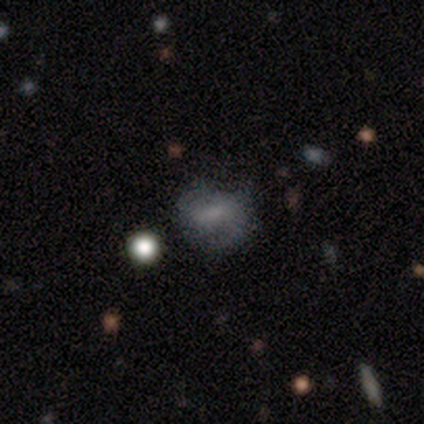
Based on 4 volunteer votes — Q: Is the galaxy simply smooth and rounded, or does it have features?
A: smooth — 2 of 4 (50%).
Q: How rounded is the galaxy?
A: in between — 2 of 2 (100%).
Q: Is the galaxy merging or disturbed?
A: none — 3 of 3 (100%).